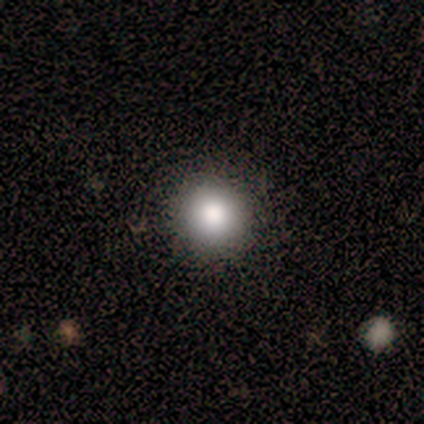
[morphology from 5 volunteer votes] type=smooth (80%); roundness=round (100%); merging=none (100%).